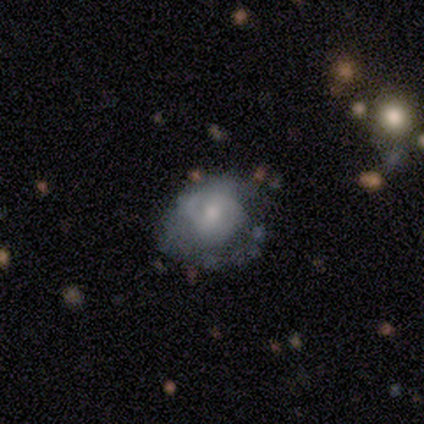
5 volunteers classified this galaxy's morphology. A featured or disk galaxy (60%) with no bar (67%), no spiral arms (67%) and a moderate central bulge (67%). Merging: none (33%, tied with minor disturbance and major disturbance).